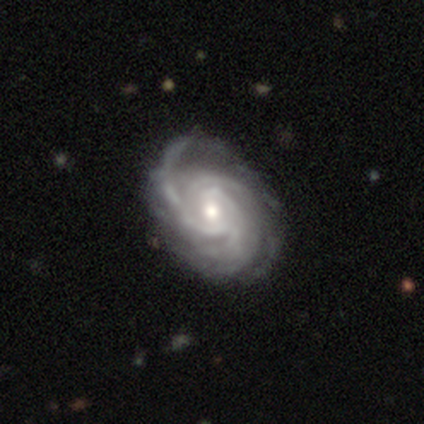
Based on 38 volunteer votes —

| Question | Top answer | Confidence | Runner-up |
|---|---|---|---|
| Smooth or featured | featured or disk | 97% | smooth (3%) |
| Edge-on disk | no | 97% | yes (3%) |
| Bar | weak | 47% | no (39%) |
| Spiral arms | yes | 100% | — |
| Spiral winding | tight | 56% | medium (39%) |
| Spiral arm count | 3 | 36% | can't tell (28%) |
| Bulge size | moderate | 64% | small (33%) |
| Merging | none | 47% | minor disturbance (16%) |